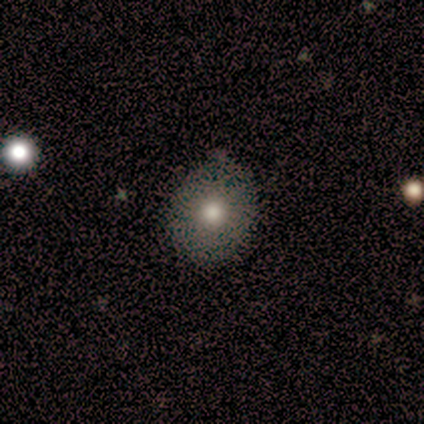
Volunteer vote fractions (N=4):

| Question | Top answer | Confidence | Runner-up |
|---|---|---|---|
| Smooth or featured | smooth | 100% | — |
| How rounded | round | 50% | tied: in between (50%) |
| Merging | none | 100% | — |